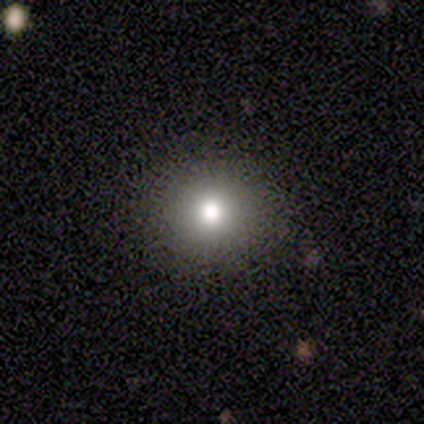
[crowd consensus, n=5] This is clearly a smooth galaxy (100%). How rounded: clearly round (80%). Merging: clearly none (100%).